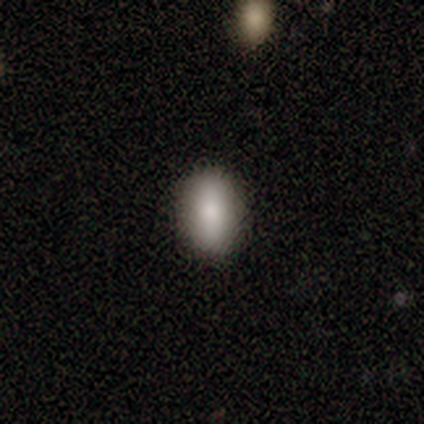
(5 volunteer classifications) Overall: smooth (100%). How rounded: in between (100%). Merging: none (100%).